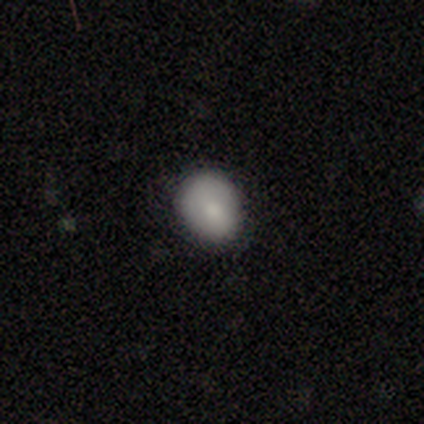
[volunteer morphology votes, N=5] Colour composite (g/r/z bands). It shows a smooth galaxy with no disk features (60%) that is round (67%). Merging: none (100%).